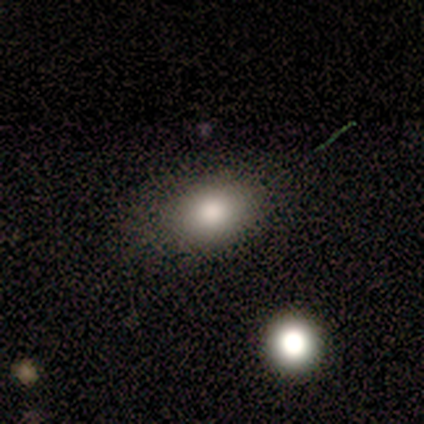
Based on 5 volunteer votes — Volunteers were most divided on "how rounded": in between: 60%, round: 40%, cigar-shaped: 0%. More confident: smooth or featured — smooth (100%); merging — none (80%).